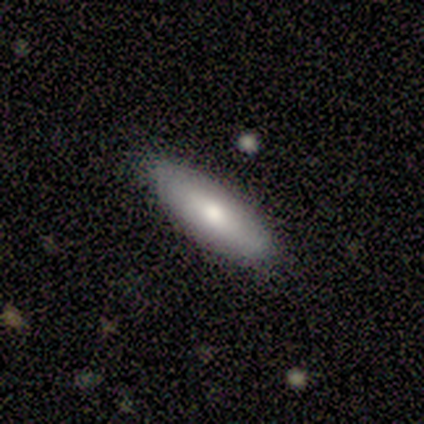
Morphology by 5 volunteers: type=smooth (100%); roundness=cigar-shaped (60%); merging=none (100%).